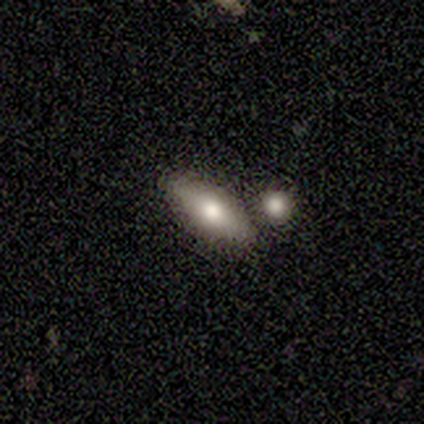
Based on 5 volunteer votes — smooth-or-featured: smooth: 100% | featured or disk: 0% | star or artifact: 0%
  how-rounded: in between: 100% | round: 0% | cigar-shaped: 0%
  merging: none: 100% | minor disturbance: 0% | major disturbance: 0% | merger: 0%